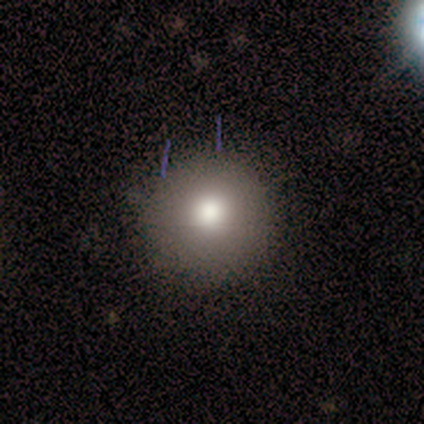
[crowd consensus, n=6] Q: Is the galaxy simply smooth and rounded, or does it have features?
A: smooth — 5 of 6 (83%).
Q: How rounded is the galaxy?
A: round — 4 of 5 (80%).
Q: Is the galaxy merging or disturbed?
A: none — 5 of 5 (100%).